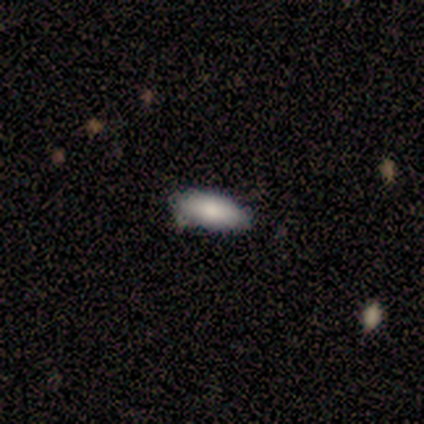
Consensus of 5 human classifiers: A smooth galaxy with no disk features (80%) that is in between round and cigar-shaped (100%).

Vote fractions:
- Smooth or featured? smooth: 80% / star or artifact: 20% / featured or disk: 0%
- How rounded? in between: 100% / round: 0% / cigar-shaped: 0%
- Merging? none: 100% / minor disturbance: 0% / major disturbance: 0% / merger: 0%